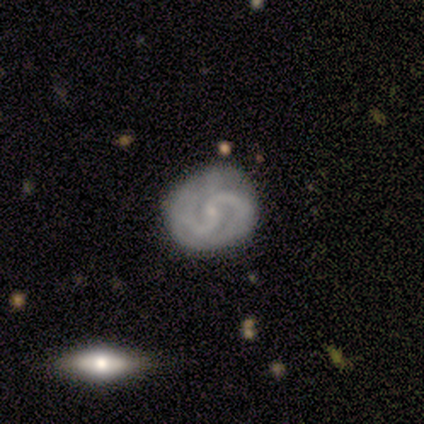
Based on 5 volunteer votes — Smooth or featured? featured or disk (80%)
Edge-on disk? no (100%)
Bar? weak (50%, tied with no)
Spiral arms? yes (100%)
Spiral winding? tight (50%, tied with medium)
Spiral arm count? 2 (100%)
Bulge size? small (75%)
Merging? none (75%)